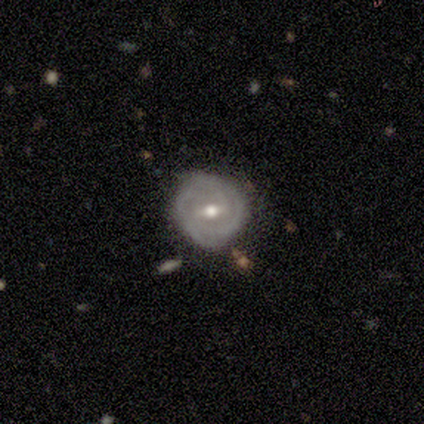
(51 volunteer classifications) Overall: featured or disk (90%). Edge-on disk: no (100%). Bar: weak (67%). Spiral arms: yes (89%). Spiral arm count: 2 (56%; can't tell 27%). Spiral winding: tight (73%). Bulge size: moderate (87%). Merging: none (80%).